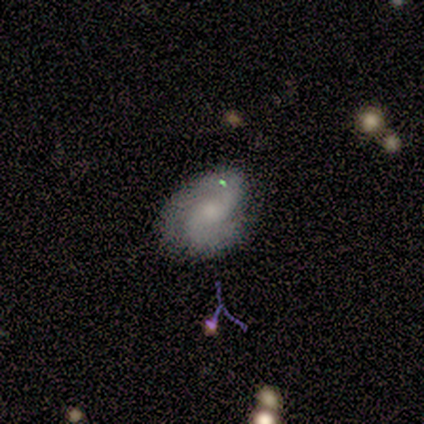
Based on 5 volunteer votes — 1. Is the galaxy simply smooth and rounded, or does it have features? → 100% featured or disk, 0% smooth, 0% star or artifact.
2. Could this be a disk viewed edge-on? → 80% no, 20% yes.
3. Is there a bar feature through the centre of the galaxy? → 100% no, 0% strong, 0% weak.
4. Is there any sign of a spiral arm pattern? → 100% yes, 0% no.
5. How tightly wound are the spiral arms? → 50% tight, 25% medium, 25% loose.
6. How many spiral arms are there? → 100% 2, 0% 1, 0% 3, 0% 4, 0% more than 4, 0% can't tell.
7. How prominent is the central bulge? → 50% none, 25% moderate, 25% small, 0% dominant, 0% large.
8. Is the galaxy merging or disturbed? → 60% none, 20% minor disturbance, 20% merger, 0% major disturbance.